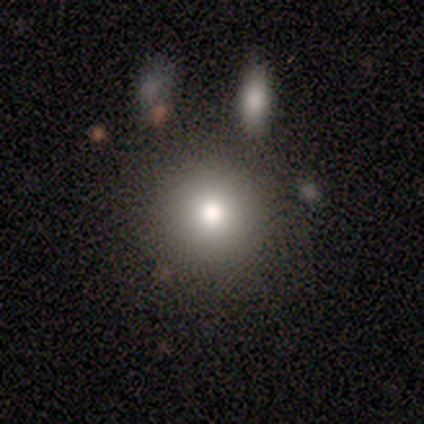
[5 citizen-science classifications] smooth-or-featured: smooth: 80% | featured or disk: 20% | star or artifact: 0%
  how-rounded: round: 100% | in between: 0% | cigar-shaped: 0%
  merging: none: 80% | minor disturbance: 20% | major disturbance: 0% | merger: 0%